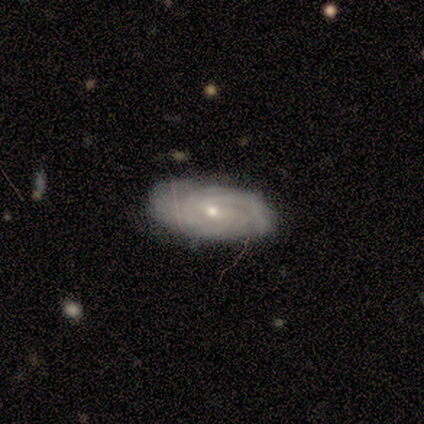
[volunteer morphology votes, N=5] smooth-or-featured: featured or disk: 100% | smooth: 0% | star or artifact: 0%
  disk-edge-on: no: 100% | yes: 0%
    bar: weak: 60% | no: 40% | strong: 0%
    has-spiral-arms: yes: 100% | no: 0%
      spiral-winding: tight: 80% | medium: 20% | loose: 0%
      spiral-arm-count: can't tell: 40% | 1: 20% | 2: 20% | 4: 20% | 3: 0% | more than 4: 0%
    bulge-size: small: 60% | moderate: 40% | dominant: 0% | large: 0% | none: 0%
  merging: none: 60% | minor disturbance: 40% | major disturbance: 0% | merger: 0%